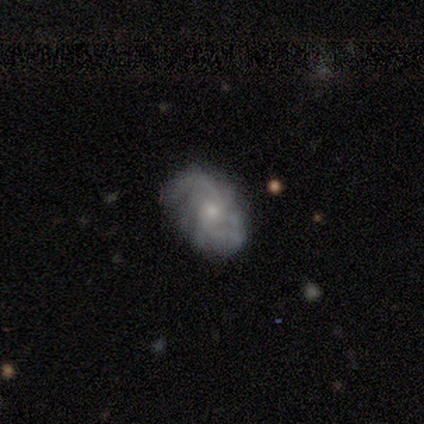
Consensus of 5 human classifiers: smooth-or-featured: featured or disk: 100% | smooth: 0% | star or artifact: 0%
  disk-edge-on: no: 60% | yes: 40%
    bar: no: 67% | weak: 33% | strong: 0%
    has-spiral-arms: yes: 100% | no: 0%
      spiral-winding: medium: 67% | loose: 33% | tight: 0%
      spiral-arm-count: 2: 33% (tied) | 4: 33% (tied) | can't tell: 33% (tied) | 1: 0% | 3: 0% | more than 4: 0%
    bulge-size: moderate: 67% | small: 33% | dominant: 0% | large: 0% | none: 0%
  merging: none: 80% | minor disturbance: 20% | major disturbance: 0% | merger: 0%